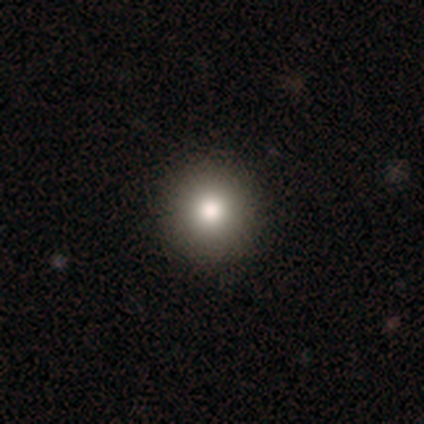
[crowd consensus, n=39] A smooth galaxy with no disk features (85%) that is round (94%). Merging: none (91%).